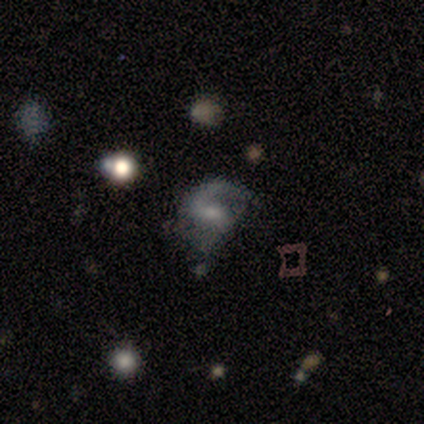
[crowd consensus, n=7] A featured or disk galaxy (86%) with no bar (80%), 1 (80%) loose (60%) spiral arms (100%) and a moderate central bulge (60%). Merging: none (71%).